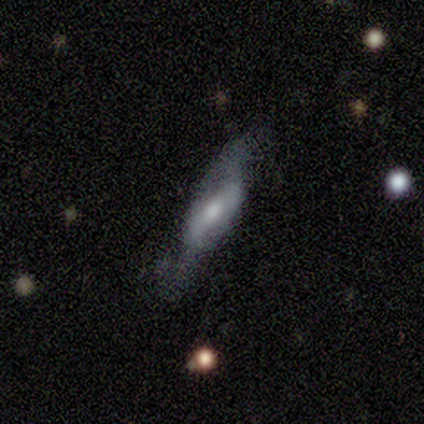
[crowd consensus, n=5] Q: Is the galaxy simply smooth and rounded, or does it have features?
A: featured or disk — 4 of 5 (80%).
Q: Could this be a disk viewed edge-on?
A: no — 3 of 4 (75%).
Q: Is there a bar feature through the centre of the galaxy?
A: strong — 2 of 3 (67%).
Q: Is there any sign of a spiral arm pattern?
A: yes — 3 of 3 (100%).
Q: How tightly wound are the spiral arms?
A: loose — 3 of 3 (100%).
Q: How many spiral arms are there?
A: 2 — 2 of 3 (67%).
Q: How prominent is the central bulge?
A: small — 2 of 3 (67%).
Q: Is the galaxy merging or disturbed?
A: major disturbance — 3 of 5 (60%).